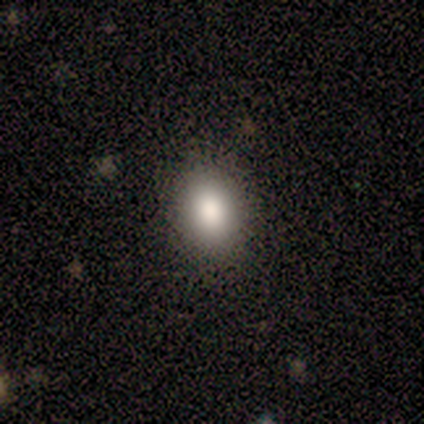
Smooth or featured: smooth — 62% (featured or disk — 25%)
How rounded: in between — 80% (round — 20%)
Merging: none — 100%